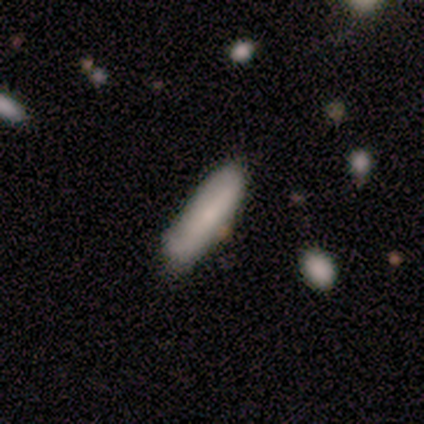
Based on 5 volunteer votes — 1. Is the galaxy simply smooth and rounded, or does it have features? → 100% smooth, 0% featured or disk, 0% star or artifact.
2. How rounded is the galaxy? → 60% cigar-shaped, 40% in between, 0% round.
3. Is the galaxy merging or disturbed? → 80% none, 20% major disturbance, 0% minor disturbance, 0% merger.